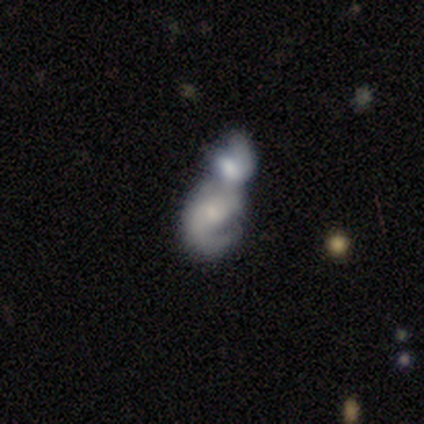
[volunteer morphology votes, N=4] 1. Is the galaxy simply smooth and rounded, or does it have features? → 50% featured or disk, 25% smooth, 25% star or artifact.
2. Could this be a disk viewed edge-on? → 50% yes (tied), 50% no (tied).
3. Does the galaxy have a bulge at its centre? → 100% rounded, 0% boxy, 0% none.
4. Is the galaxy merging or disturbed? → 100% merger, 0% none, 0% minor disturbance, 0% major disturbance.